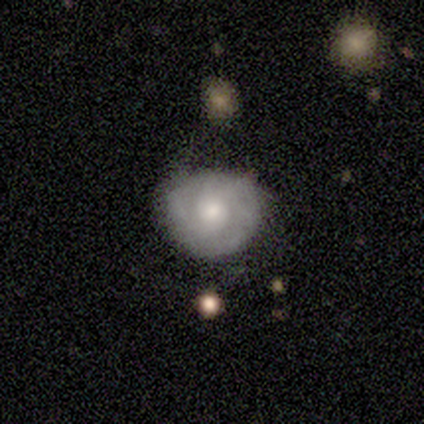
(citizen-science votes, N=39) Smooth or featured? 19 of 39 (49%) said featured or disk. Edge-on disk? 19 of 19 (100%) said no. Bar? 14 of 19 (74%) said no. Spiral arms? 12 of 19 (63%) said no. Bulge size? 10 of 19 (53%) said moderate. Merging? 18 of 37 (49%) said none.